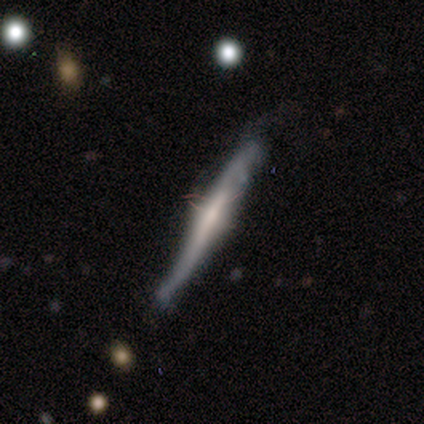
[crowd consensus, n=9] A featured or disk galaxy (78%) viewed edge-on (86%) with a boxy central bulge (50%).

Vote fractions:
- Smooth or featured? featured or disk: 78% / smooth: 22% / star or artifact: 0%
- Edge-on disk? yes: 86% / no: 14%
- Edge-on bulge? boxy: 50% / rounded: 33% / none: 17%
- Merging? none: 56% / minor disturbance: 44% / major disturbance: 0% / merger: 0%